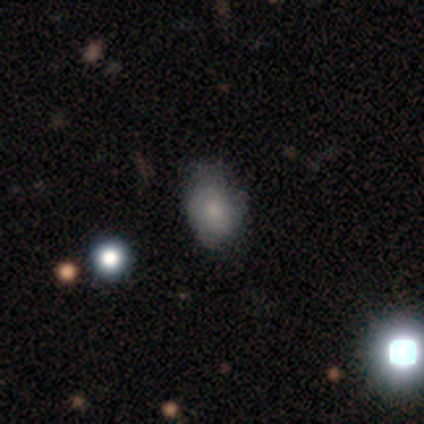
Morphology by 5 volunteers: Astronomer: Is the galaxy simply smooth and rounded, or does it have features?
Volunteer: smooth — 40%, tied with featured or disk at 40%.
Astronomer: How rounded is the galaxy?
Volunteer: round — 50%, tied with in between at 50%.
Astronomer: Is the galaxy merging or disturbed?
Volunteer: none — 75%.